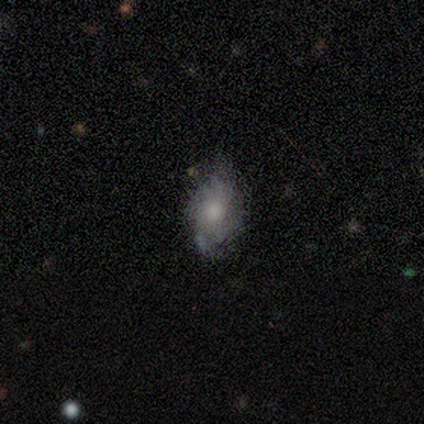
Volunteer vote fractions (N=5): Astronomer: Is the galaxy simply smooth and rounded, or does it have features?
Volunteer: smooth — 60% (runner-up: featured or disk, 40%).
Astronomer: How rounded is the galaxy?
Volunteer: in between — 100%.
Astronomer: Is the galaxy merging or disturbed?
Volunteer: none — 40%, tied with major disturbance at 40%.